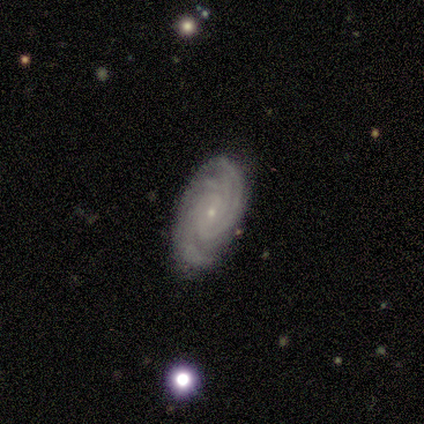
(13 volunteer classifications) A featured or disk galaxy (92%) with no bar (92%), tight (92%) spiral arms (100%) and a small central bulge (92%). Merging: none (92%).